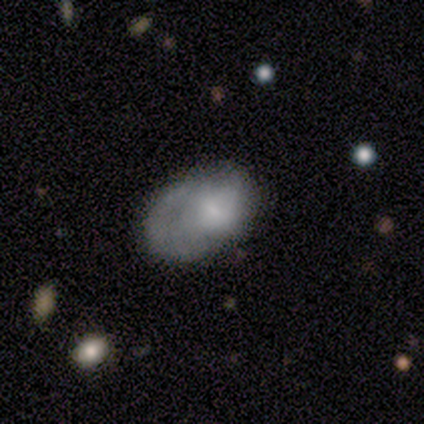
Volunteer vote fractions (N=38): Morphology: type=smooth (55%); roundness=in between (86%); merging=none (32%, tied with minor disturbance).